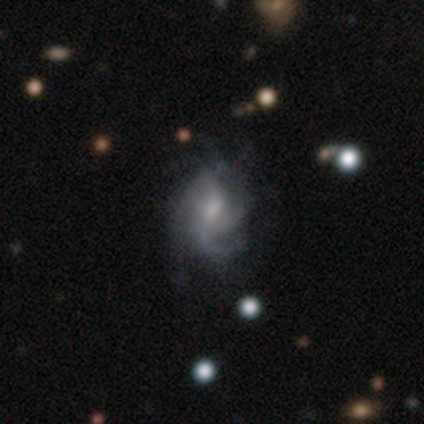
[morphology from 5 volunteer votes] Smooth or featured? 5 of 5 (100%) said featured or disk. Edge-on disk? 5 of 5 (100%) said no. Bar? 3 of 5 (60%) said weak. Spiral arms? 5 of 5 (100%) said yes. Spiral winding? 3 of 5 (60%) said tight. Spiral arm count? 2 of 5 (40%) said 3. Bulge size? 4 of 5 (80%) said moderate. Merging? 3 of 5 (60%) said none.